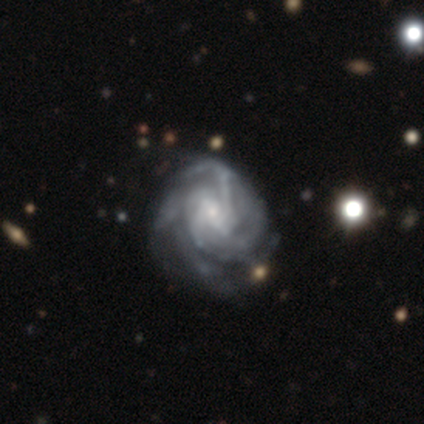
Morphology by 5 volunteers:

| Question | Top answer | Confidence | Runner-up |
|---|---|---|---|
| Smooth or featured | featured or disk | 100% | — |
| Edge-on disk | no | 100% | — |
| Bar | weak | 40% | tied: no (40%) |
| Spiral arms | yes | 100% | — |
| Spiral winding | medium | 60% | tight (40%) |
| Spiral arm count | can't tell | 60% | 2 (20%) |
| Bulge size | small | 60% | large (20%) |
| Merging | none | 40% | tied: minor disturbance (40%) |